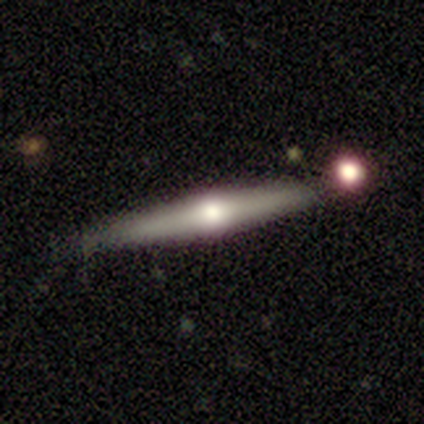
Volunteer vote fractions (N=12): This is possibly a featured or disk galaxy (58%). It is clearly viewed edge-on (100%). Edge-on bulge: clearly rounded (100%). Merging: clearly none (91%).